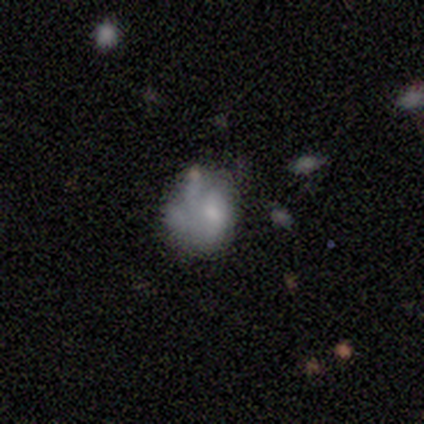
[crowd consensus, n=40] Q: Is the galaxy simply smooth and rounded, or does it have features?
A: smooth — 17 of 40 (42%).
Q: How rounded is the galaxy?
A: in between — 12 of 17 (71%).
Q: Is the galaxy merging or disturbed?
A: none — 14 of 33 (42%).